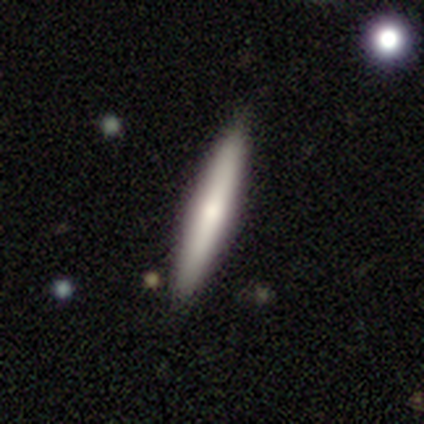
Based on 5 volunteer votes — smooth 80%, featured or disk 20%, star or artifact 0%. Down the decision tree: how rounded — cigar-shaped (100%); merging — none (80%).